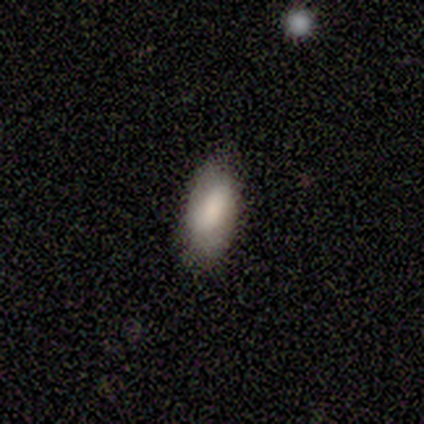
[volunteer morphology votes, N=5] Q: Smooth or featured?
A: smooth (100%)
Q: How rounded?
A: in between (100%)
Q: Merging?
A: none (80%); runner-up: minor disturbance (20%)